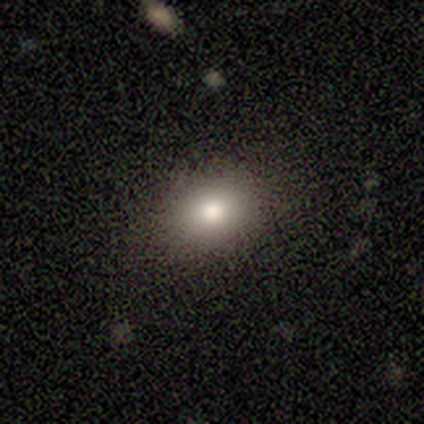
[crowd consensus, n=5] Overall: smooth (80%). How rounded: round (50%, tied with in between). Merging: none (100%).